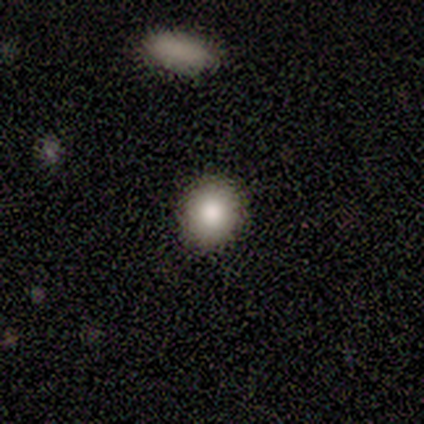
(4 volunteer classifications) This appears to be a smooth galaxy with no disk features (50%, tied with star or artifact) that is round (100%). Merging: none (100%).